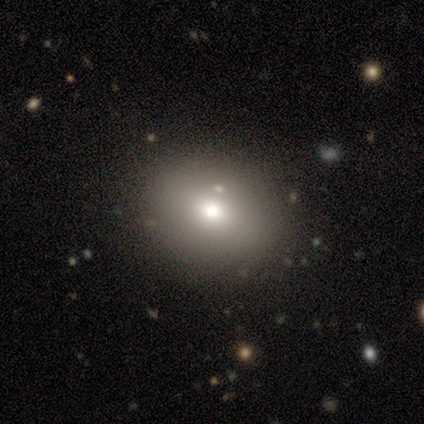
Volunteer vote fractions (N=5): Volunteers were most divided on "how rounded": in between: 75%, round: 25%, cigar-shaped: 0%. More confident: smooth or featured — smooth (80%); merging — none (75%).